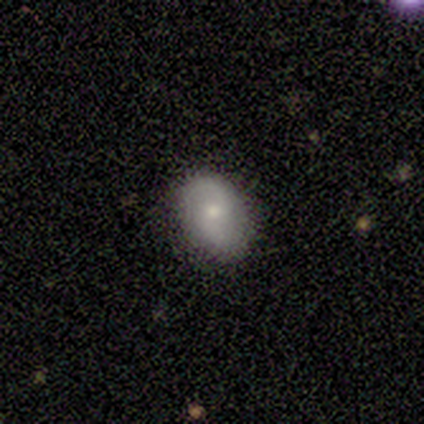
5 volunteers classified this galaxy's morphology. type=smooth (60%); roundness=in between (100%); merging=none (100%).